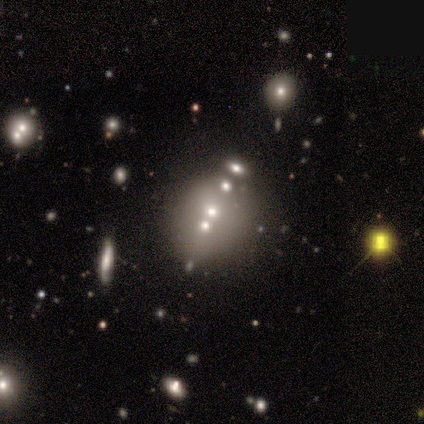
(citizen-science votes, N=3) Q: Smooth or featured?
A: featured or disk (67%); runner-up: star or artifact (33%)
Q: Edge-on disk?
A: no (100%)
Q: Bar?
A: no (100%)
Q: Spiral arms?
A: no (100%)
Q: Bulge size?
A: moderate (50%); tied with: none (50%)
Q: Merging?
A: none (50%); tied with: merger (50%)